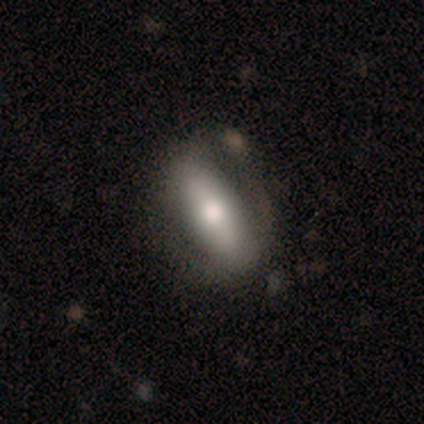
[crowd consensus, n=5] A featured or disk galaxy (80%) with a strong bar (67%), no spiral arms (67%) and a moderate central bulge (67%). Merging: none (40%, tied with minor disturbance).